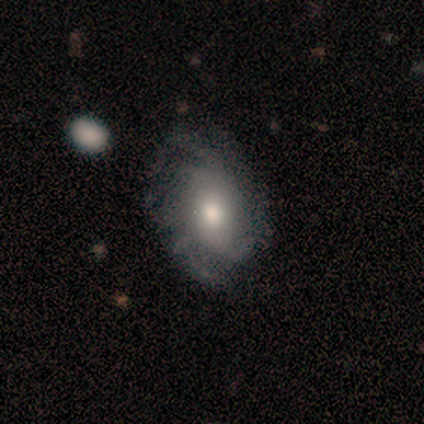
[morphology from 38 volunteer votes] smooth-or-featured: featured or disk: 66% | smooth: 26% | star or artifact: 8%
  disk-edge-on: no: 84% | yes: 16%
    bar: no: 81% | weak: 19% | strong: 0%
    has-spiral-arms: yes: 71% | no: 29%
      spiral-winding: tight: 60% | medium: 20% | loose: 20%
      spiral-arm-count: can't tell: 60% | more than 4: 20% | 2: 7% | 3: 7% | 4: 7% | 1: 0%
    bulge-size: moderate: 62% | small: 19% | none: 10% | dominant: 5% | large: 5%
  merging: none: 60% | minor disturbance: 31% | major disturbance: 9% | merger: 0%